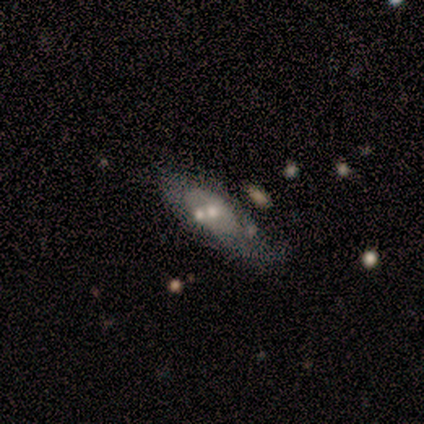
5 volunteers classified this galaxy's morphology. smooth_or_featured: featured or disk (p=0.60) [alt: smooth p=0.40]
disk_edge_on: no (p=1.00)
bar: no (p=0.67) [alt: weak p=0.33]
has_spiral_arms: no (p=1.00)
bulge_size: moderate (p=0.67) [alt: none p=0.33]
merging: merger (p=0.80) [alt: none p=0.20]